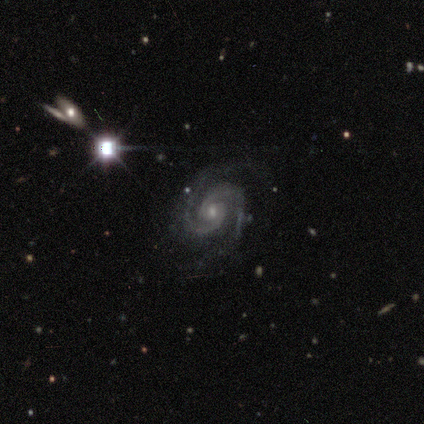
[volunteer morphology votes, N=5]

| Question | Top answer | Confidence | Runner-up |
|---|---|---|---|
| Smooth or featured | featured or disk | 100% | — |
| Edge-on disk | no | 100% | — |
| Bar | no | 80% | weak (20%) |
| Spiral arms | yes | 100% | — |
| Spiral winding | tight | 80% | medium (20%) |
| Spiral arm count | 2 | 100% | — |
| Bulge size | small | 60% | moderate (40%) |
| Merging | none | 40% | minor disturbance (20%) |